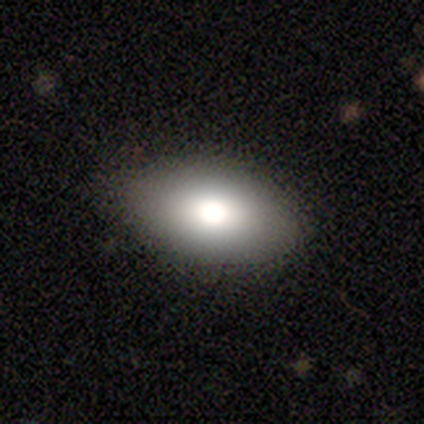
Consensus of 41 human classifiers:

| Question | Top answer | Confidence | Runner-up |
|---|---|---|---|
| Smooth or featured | smooth | 66% | featured or disk (24%) |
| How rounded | in between | 93% | round (7%) |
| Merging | none | 73% | minor disturbance (24%) |